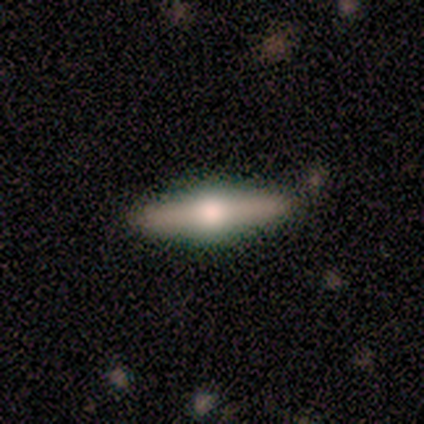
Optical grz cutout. It shows a featured or disk galaxy (67%) viewed edge-on (50%, tied with no) with a rounded central bulge (100%). Merging: none (100%).